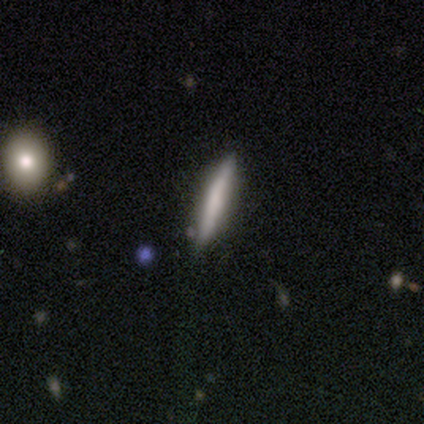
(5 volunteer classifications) Smooth or featured? featured or disk (100%)
Edge-on disk? yes (100%)
Edge-on bulge? none (60%)
Merging? none (80%)